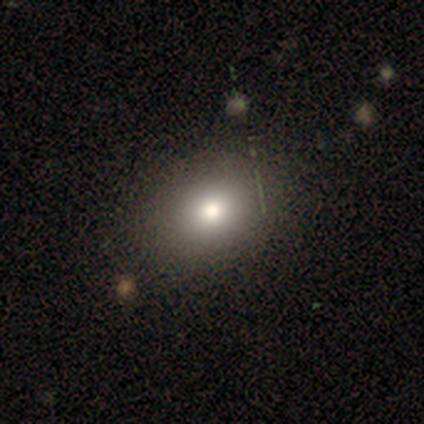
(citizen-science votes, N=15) A smooth galaxy with no disk features (60%) that is in between round and cigar-shaped (67%). Merging: none (100%).